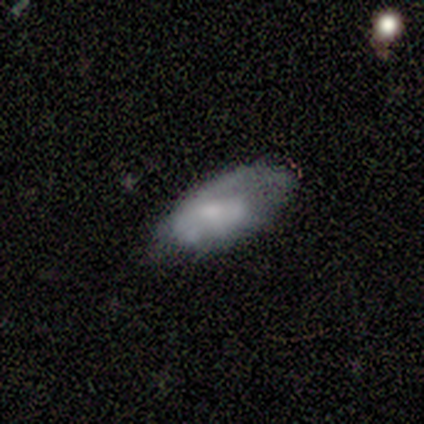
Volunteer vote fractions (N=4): Smooth or featured? 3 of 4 (75%) said featured or disk. Edge-on disk? 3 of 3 (100%) said no. Bar? 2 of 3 (67%) said no. Spiral arms? 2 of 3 (67%) said yes. Spiral winding? 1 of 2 (50%, tied with loose) said medium. Spiral arm count? 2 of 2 (100%) said 1. Bulge size? 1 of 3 (33%, tied with small and none) said large. Merging? 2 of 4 (50%, tied with minor disturbance) said none.